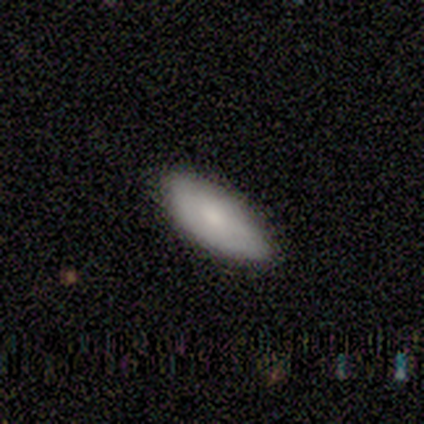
Smooth or featured: smooth — 60% (featured or disk — 20%)
How rounded: in between — 100%
Merging: none — 100%